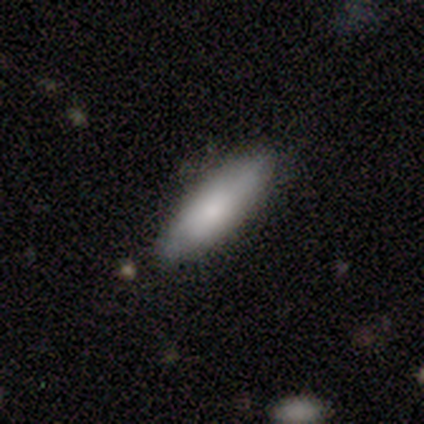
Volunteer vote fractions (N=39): A smooth galaxy with no disk features (72%) that is in between round and cigar-shaped (54%). Merging: none (71%).